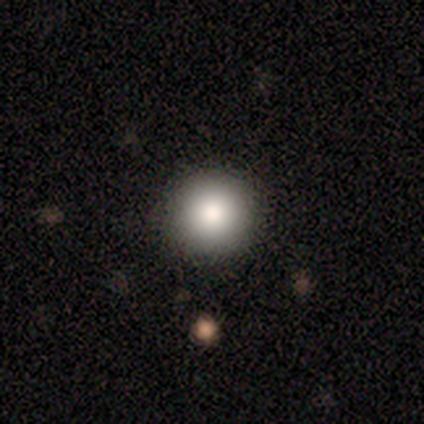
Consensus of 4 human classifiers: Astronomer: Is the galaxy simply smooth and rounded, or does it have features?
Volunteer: smooth — 75%.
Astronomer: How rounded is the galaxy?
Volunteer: round — 100%.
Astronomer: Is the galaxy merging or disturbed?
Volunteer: none — 100%.